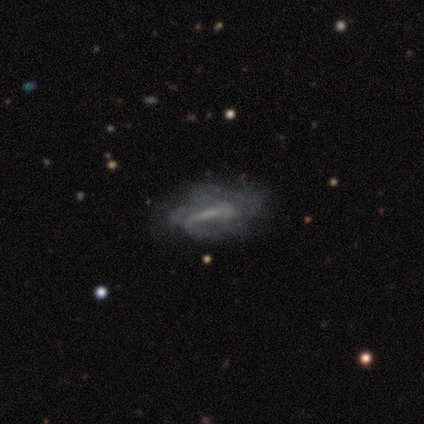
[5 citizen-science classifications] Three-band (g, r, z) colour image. It shows a smooth galaxy with no disk features (40%, tied with featured or disk) that is cigar-shaped (100%). Merging: none (50%).